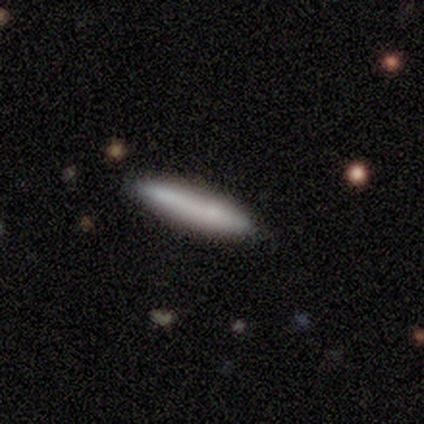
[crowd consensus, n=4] smooth-or-featured: smooth: 75% | featured or disk: 25% | star or artifact: 0%
  how-rounded: cigar-shaped: 67% | in between: 33% | round: 0%
  merging: none: 75% | major disturbance: 25% | minor disturbance: 0% | merger: 0%